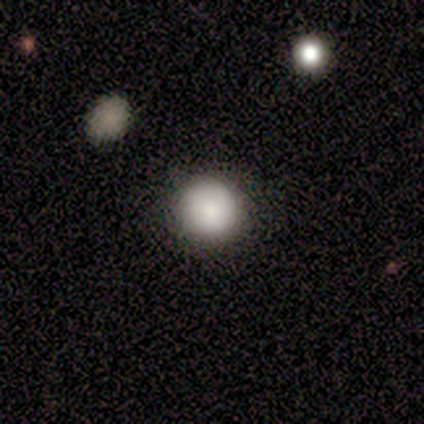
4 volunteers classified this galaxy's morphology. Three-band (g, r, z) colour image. It shows a smooth galaxy with no disk features (100%) that is round (100%). Merging: none (100%).